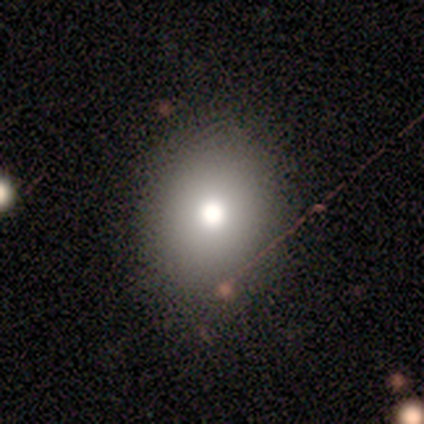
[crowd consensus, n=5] A smooth galaxy with no disk features (60%) that is round (100%).

Vote fractions:
- Smooth or featured? smooth: 60% / featured or disk: 20% / star or artifact: 20%
- How rounded? round: 100% / in between: 0% / cigar-shaped: 0%
- Merging? none: 75% / minor disturbance: 25% / major disturbance: 0% / merger: 0%